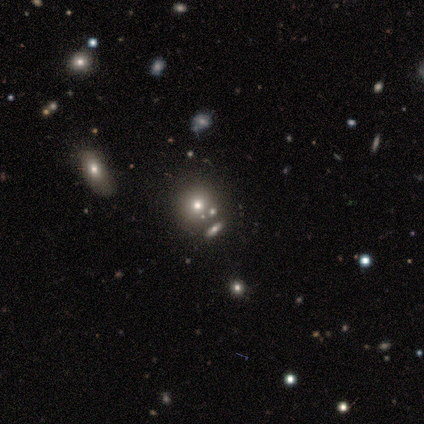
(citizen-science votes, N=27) smooth 48%, star or artifact 37%, featured or disk 15%. Down the decision tree: how rounded — round (85%); merging — none (88%).